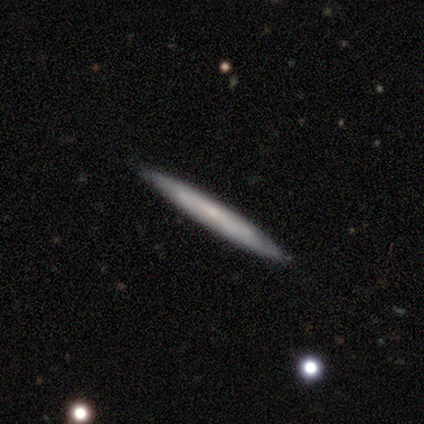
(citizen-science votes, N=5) Morphology: type=smooth (40%, tied with featured or disk); roundness=cigar-shaped (100%); merging=none (100%).